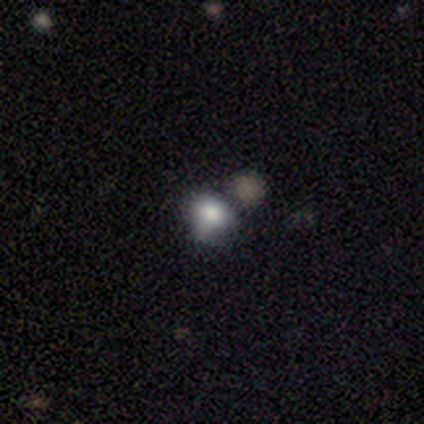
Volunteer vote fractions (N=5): smooth-or-featured: smooth: 100% | featured or disk: 0% | star or artifact: 0%
  how-rounded: round: 80% | in between: 20% | cigar-shaped: 0%
  merging: none: 60% | minor disturbance: 20% | merger: 20% | major disturbance: 0%